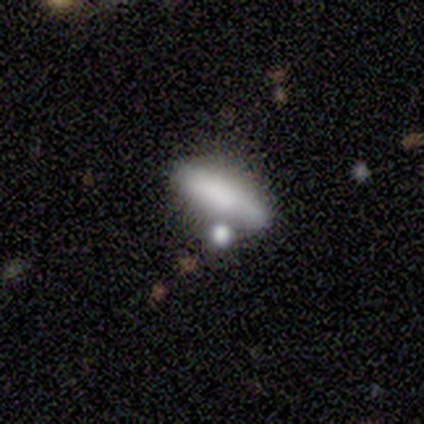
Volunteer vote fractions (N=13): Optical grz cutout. It shows a smooth galaxy with no disk features (62%) that is in between round and cigar-shaped (75%). Merging: none (42%).